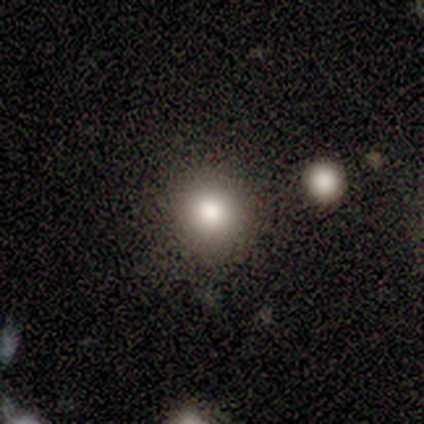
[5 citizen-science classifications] Smooth or featured? smooth (100%)
How rounded? round (100%)
Merging? none (100%)